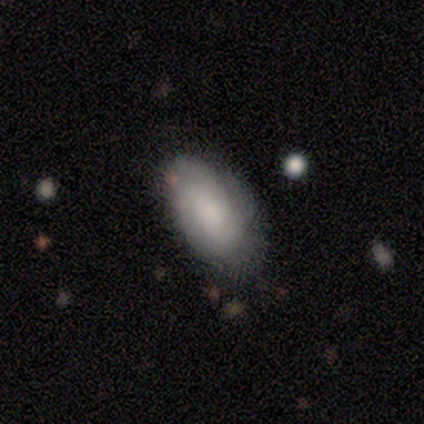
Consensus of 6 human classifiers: smooth 67%, featured or disk 33%, star or artifact 0%. Down the decision tree: how rounded — in between (75%); merging — none (67%).